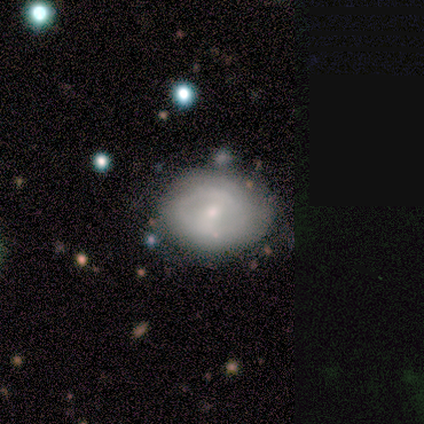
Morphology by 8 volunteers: smooth_or_featured: featured or disk (p=0.50) [alt: smooth p=0.38]
disk_edge_on: no (p=1.00)
bar: weak (p=0.75) [alt: no p=0.25]
has_spiral_arms: yes (p=0.50) [tied with: no p=0.50]
spiral_winding: tight (p=1.00)
spiral_arm_count: 2 (p=1.00)
bulge_size: small (p=0.75) [alt: moderate p=0.25]
merging: none (p=0.43) [tied with: minor disturbance p=0.43]